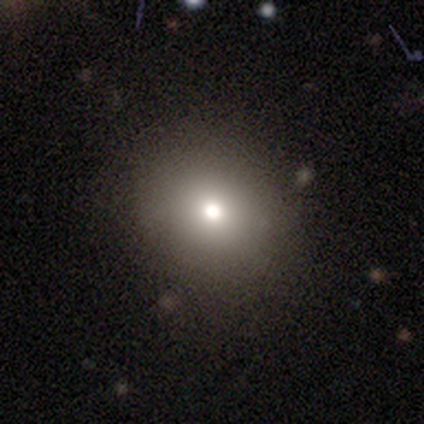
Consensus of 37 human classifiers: smooth_or_featured: smooth (p=0.81) [alt: star or artifact p=0.11]
how_rounded: round (p=0.70) [alt: in between p=0.30]
merging: none (p=0.88) [alt: minor disturbance p=0.09]